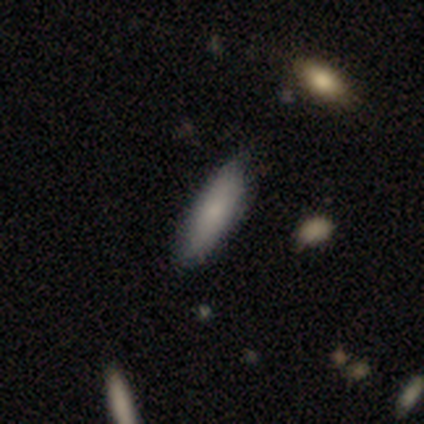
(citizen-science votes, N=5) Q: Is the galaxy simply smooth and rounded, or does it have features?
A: smooth — 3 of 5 (60%).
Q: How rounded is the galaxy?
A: in between — 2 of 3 (67%).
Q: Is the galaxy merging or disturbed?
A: none — 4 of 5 (80%).